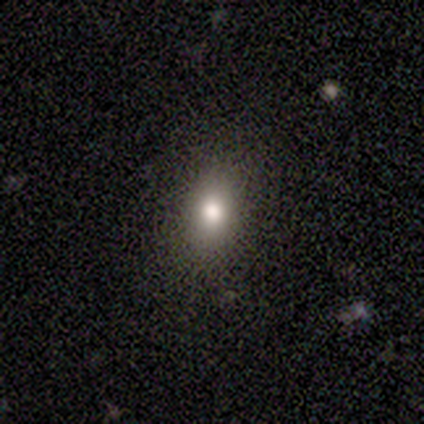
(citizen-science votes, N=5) A smooth galaxy with no disk features (60%) that is in between round and cigar-shaped (100%). Merging: none (67%).